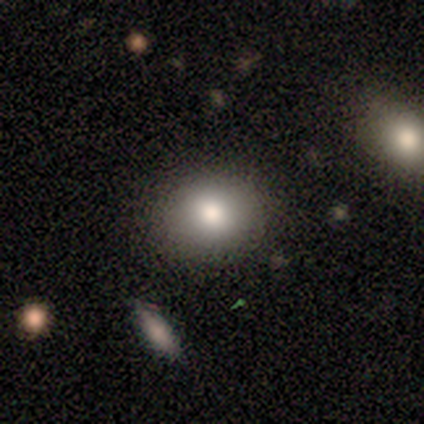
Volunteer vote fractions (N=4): This appears to be a smooth galaxy with no disk features (75%) that is in between round and cigar-shaped (67%). Merging: none (100%).